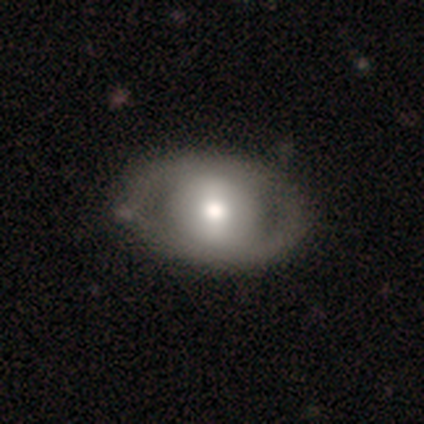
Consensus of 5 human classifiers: featured or disk 80%, smooth 20%, star or artifact 0%. Down the decision tree: edge-on disk — no (100%); bar — weak (75%); spiral arms — no (75%); bulge size — moderate (75%); merging — none (80%).